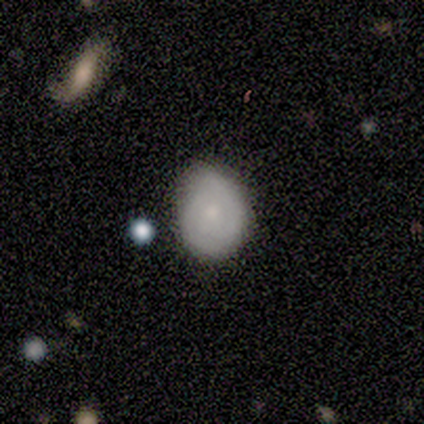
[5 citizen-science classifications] Q: Smooth or featured?
A: smooth (60%); runner-up: featured or disk (40%)
Q: How rounded?
A: round (100%)
Q: Merging?
A: none (60%); runner-up: minor disturbance (40%)